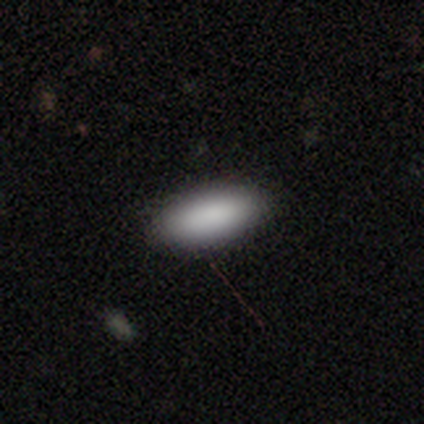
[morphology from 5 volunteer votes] smooth_or_featured: smooth (p=0.80) [alt: featured or disk p=0.20]
how_rounded: in between (p=1.00)
merging: none (p=0.80) [alt: minor disturbance p=0.20]